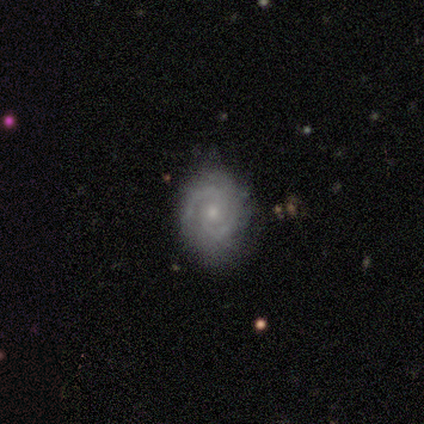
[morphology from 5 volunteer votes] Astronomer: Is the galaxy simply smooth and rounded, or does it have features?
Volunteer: featured or disk — 100%.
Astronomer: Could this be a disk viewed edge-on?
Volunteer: no — 100%.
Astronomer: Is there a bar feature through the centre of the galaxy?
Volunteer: no — 80%.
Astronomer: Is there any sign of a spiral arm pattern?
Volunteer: yes — 100%.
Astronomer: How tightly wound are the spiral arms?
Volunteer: tight — 80%.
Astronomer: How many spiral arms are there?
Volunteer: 2 — 80%.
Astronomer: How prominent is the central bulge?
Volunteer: moderate — 40% (runner-up: large, 20%).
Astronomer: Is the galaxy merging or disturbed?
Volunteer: none — 100%.